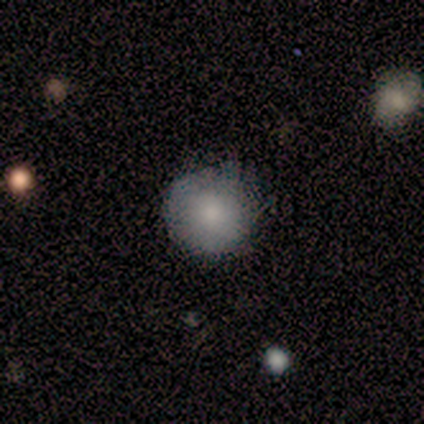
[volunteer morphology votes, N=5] smooth 100%, featured or disk 0%, star or artifact 0%. Down the decision tree: how rounded — round (100%); merging — none (80%).